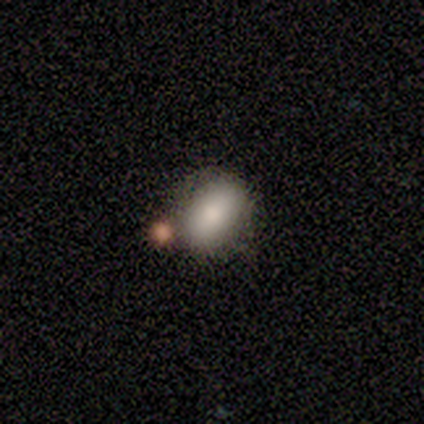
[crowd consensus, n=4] Smooth or featured: smooth — 75% (featured or disk — 25%)
How rounded: in between — 100%
Merging: none — 50% (minor disturbance — 25%)